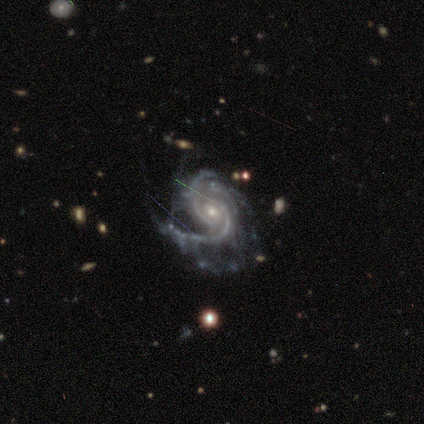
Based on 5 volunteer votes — smooth-or-featured: featured or disk: 100% | smooth: 0% | star or artifact: 0%
  disk-edge-on: no: 80% | yes: 20%
    bar: no: 50% | strong: 25% | weak: 25%
    has-spiral-arms: yes: 100% | no: 0%
      spiral-winding: medium: 50% | tight: 25% | loose: 25%
      spiral-arm-count: 2: 75% | 3: 25% | 1: 0% | 4: 0% | more than 4: 0% | can't tell: 0%
    bulge-size: moderate: 75% | small: 25% | dominant: 0% | large: 0% | none: 0%
  merging: none: 60% | minor disturbance: 20% | major disturbance: 20% | merger: 0%